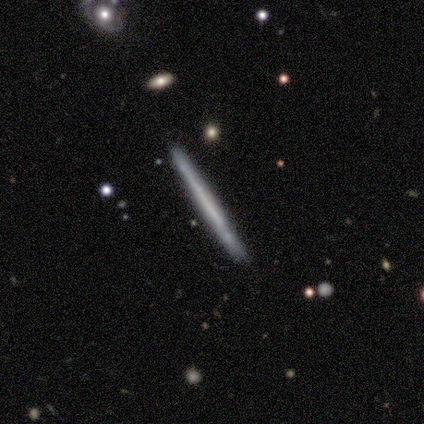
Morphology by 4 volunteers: Volunteers were most divided on "edge-on bulge": none: 67%, boxy: 33%, rounded: 0%. More confident: edge-on disk — yes (100%); merging — none (100%); smooth or featured — featured or disk (75%).